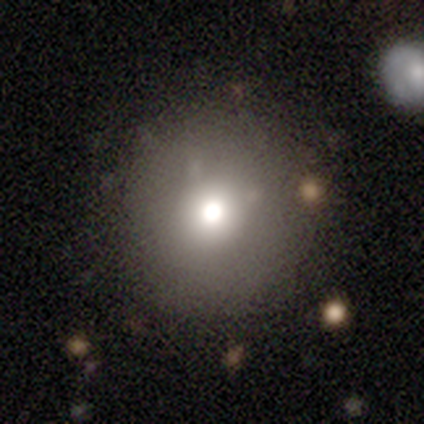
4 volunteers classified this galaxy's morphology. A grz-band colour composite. It shows a smooth galaxy with no disk features (100%) that is round (100%). Merging: none (100%).